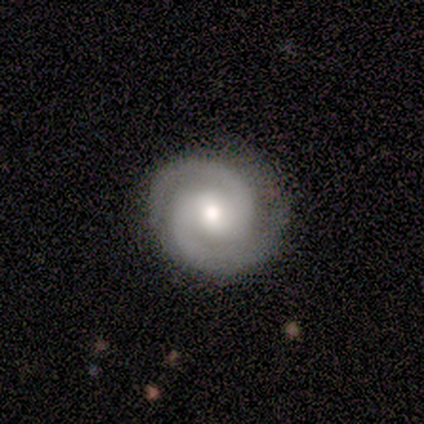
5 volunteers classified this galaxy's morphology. type=featured or disk (100%); edge-on=no (100%); bar=strong (40%, tied with no); spiral arms=yes (100%); winding=tight (100%); arm count=2 (80%); bulge=moderate (100%); merging=none (100%).